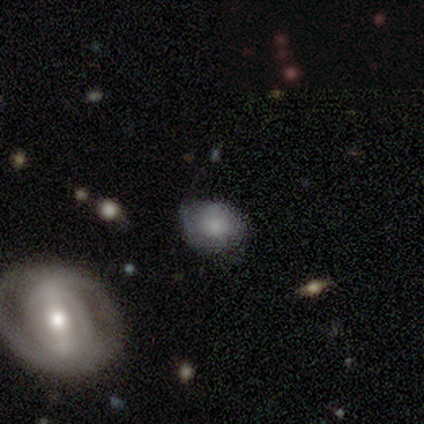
Morphology: type=smooth (60%); roundness=round (67%); merging=none (80%).